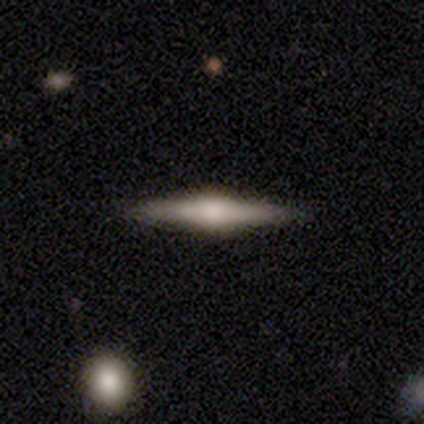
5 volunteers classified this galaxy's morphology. This is clearly a featured or disk galaxy (80%). It is clearly viewed edge-on (100%). Edge-on bulge: clearly rounded (100%). Merging: clearly none (80%).